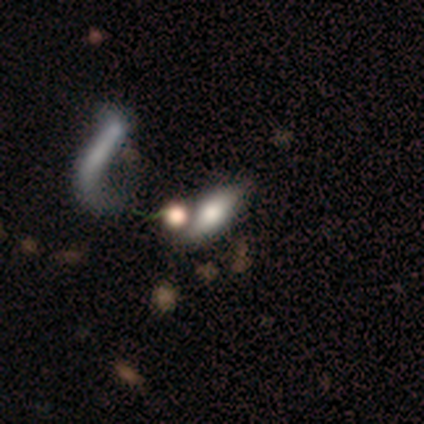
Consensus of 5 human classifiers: Overall: featured or disk (60%; smooth 40%). Edge-on disk: yes (67%; no 33%). Edge-on bulge: rounded (100%). Merging: major disturbance (60%; none 20%).